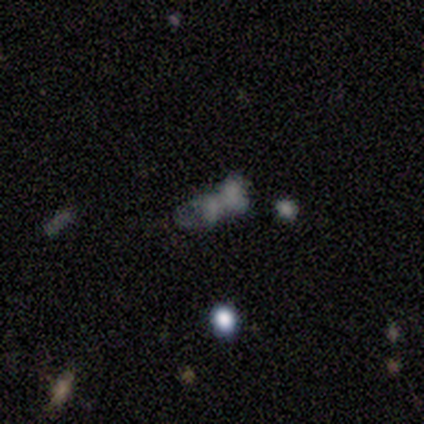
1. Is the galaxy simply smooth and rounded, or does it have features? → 60% smooth, 20% featured or disk, 20% star or artifact.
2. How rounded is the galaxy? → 100% in between, 0% round, 0% cigar-shaped.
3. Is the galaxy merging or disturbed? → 50% merger, 25% minor disturbance, 25% major disturbance, 0% none.